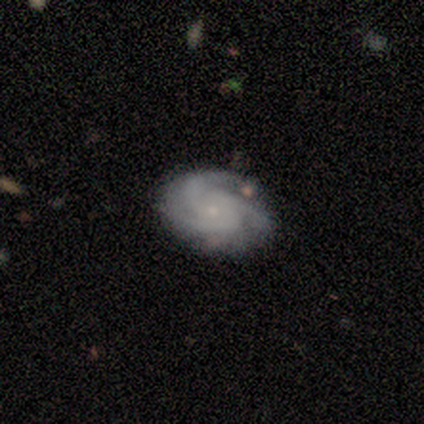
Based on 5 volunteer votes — featured or disk 60%, smooth 20%, star or artifact 20%. Down the decision tree: edge-on disk — no (100%); bar — no (100%); spiral arms — yes (100%); spiral arm count — 3 (100%); spiral winding — tight (67%); bulge size — small (67%); merging — none (75%).